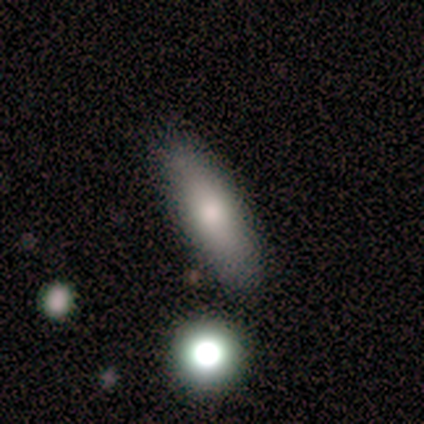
This is clearly a smooth galaxy (80%). How rounded: clearly in between (100%). Merging: clearly none (80%).